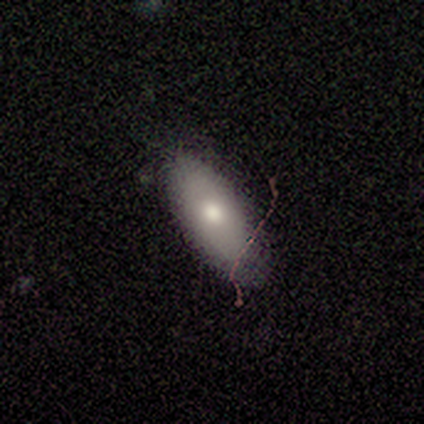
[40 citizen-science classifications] This appears to be a smooth galaxy with no disk features (72%) that is in between round and cigar-shaped (93%). Merging: none (64%).